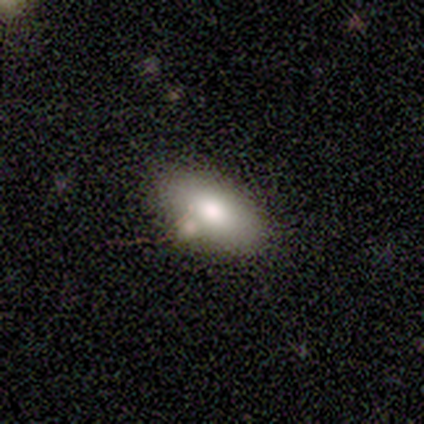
Smooth or featured? smooth (80%)
How rounded? in between (75%)
Merging? none (60%)